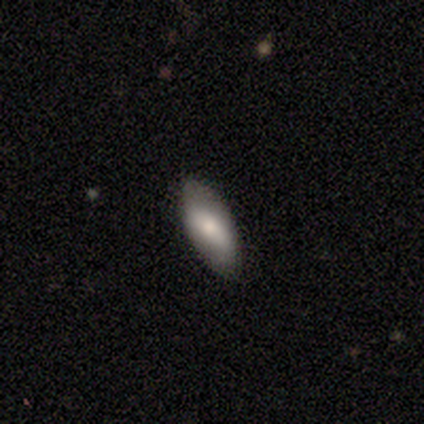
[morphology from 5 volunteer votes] This appears to be a smooth galaxy with no disk features (80%) that is in between round and cigar-shaped (100%). Merging: none (100%).